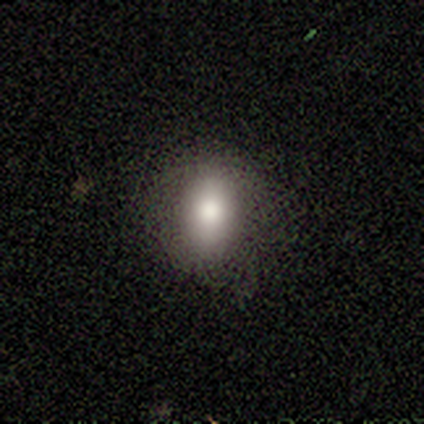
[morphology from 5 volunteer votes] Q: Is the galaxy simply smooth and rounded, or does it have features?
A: smooth — 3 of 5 (60%).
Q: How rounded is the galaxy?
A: in between — 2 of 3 (67%).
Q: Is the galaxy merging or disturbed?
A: none — 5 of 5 (100%).